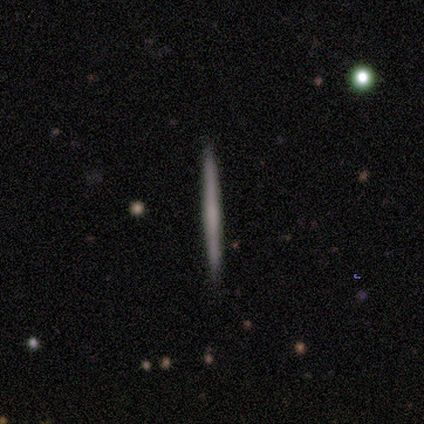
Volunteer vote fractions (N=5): A smooth galaxy with no disk features (60%) that is cigar-shaped (100%). Merging: none (100%).